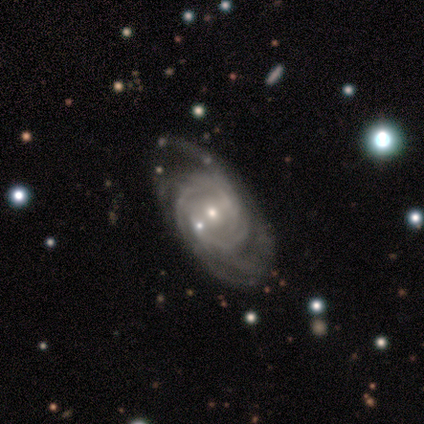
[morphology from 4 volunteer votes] smooth_or_featured: featured or disk (p=1.00)
disk_edge_on: no (p=1.00)
bar: no (p=0.75) [alt: weak p=0.25]
has_spiral_arms: yes (p=1.00)
spiral_winding: tight (p=0.50) [tied with: medium p=0.50]
spiral_arm_count: more than 4 (p=0.50) [tied with: can't tell p=0.50]
bulge_size: small (p=0.75) [alt: none p=0.25]
merging: none (p=0.50) [alt: minor disturbance p=0.25]